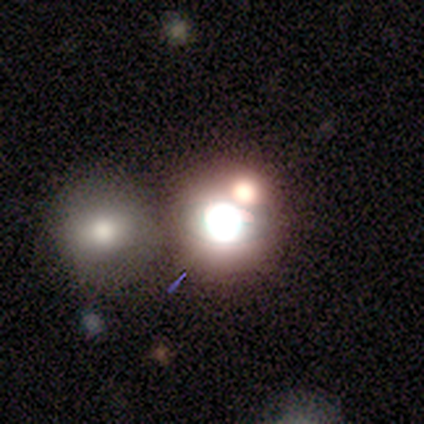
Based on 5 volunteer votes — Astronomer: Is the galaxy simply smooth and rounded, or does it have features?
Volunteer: star or artifact — 60% (runner-up: smooth, 40%).